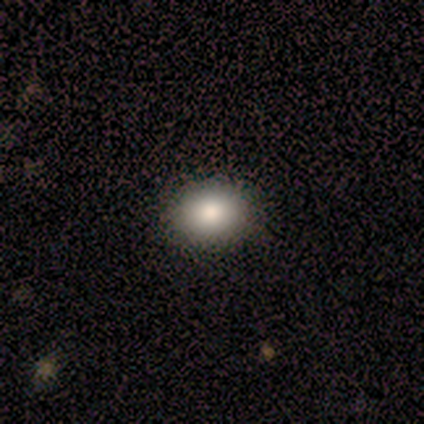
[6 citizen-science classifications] A smooth galaxy with no disk features (100%) that is round (50%, tied with in between). Merging: none (83%).